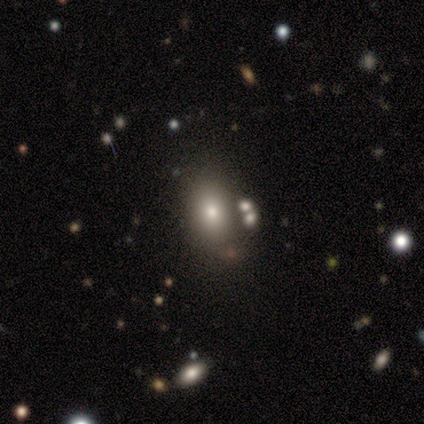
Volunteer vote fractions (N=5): Q: Smooth or featured?
A: smooth (60%); runner-up: featured or disk (20%)
Q: How rounded?
A: in between (67%); runner-up: cigar-shaped (33%)
Q: Merging?
A: none (50%); tied with: minor disturbance (50%)